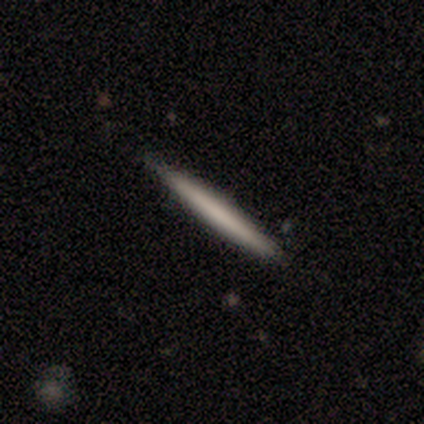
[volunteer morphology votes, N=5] Smooth or featured? 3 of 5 (60%) said smooth. How rounded? 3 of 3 (100%) said cigar-shaped. Merging? 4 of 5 (80%) said none.